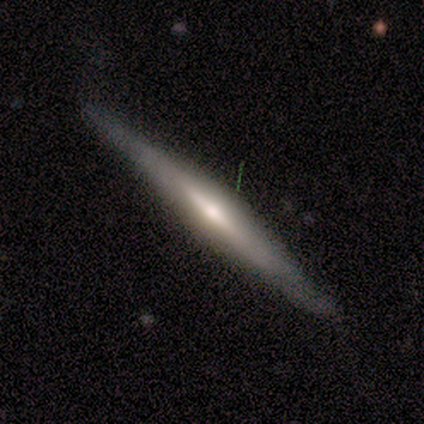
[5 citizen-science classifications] Smooth or featured? featured or disk (100%)
Edge-on disk? yes (100%)
Edge-on bulge? none (40%, tied with rounded)
Merging? none (80%)